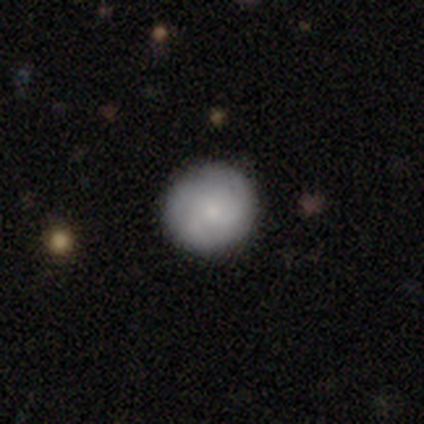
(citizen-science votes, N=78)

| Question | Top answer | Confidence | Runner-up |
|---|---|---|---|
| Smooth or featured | smooth | 71% | featured or disk (26%) |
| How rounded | round | 98% | in between (2%) |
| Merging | none | 51% | minor disturbance (1%) |